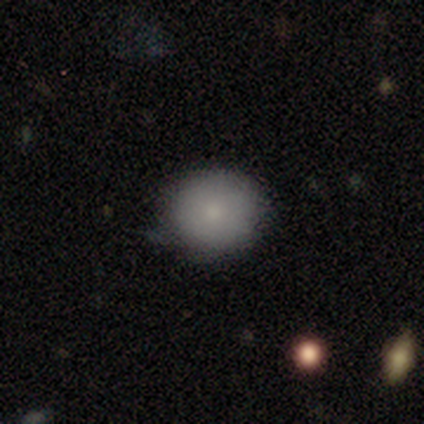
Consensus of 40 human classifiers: Volunteers were most divided on "merging": none: 67%, minor disturbance: 23%, major disturbance: 10%, merger: 0%. More confident: how rounded — round (92%); smooth or featured — smooth (90%).